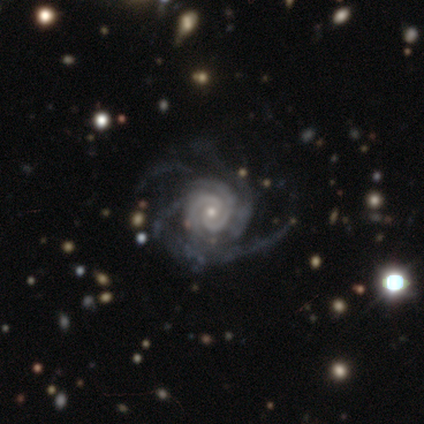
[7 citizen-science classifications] This appears to be a featured or disk galaxy (100%) with no bar (83%), 4 (50%) tight (83%) spiral arms (100%) and a small central bulge (67%). Merging: none (86%).